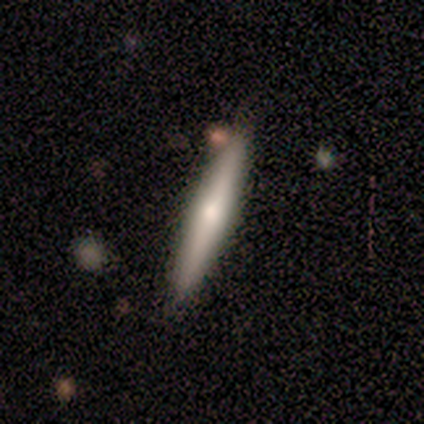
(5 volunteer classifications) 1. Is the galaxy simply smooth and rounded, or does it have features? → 60% featured or disk, 40% smooth, 0% star or artifact.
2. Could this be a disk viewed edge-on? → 100% yes, 0% no.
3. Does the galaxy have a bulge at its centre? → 100% rounded, 0% boxy, 0% none.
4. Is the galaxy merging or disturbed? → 80% none, 20% minor disturbance, 0% major disturbance, 0% merger.